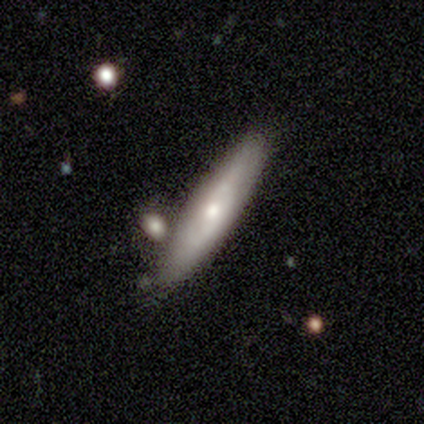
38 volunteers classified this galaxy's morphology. Overall: featured or disk (66%; smooth 26%). Edge-on disk: yes (56%; no 44%). Edge-on bulge: rounded (100%). Merging: none (71%).